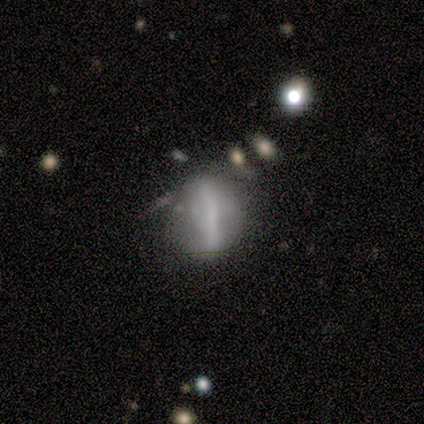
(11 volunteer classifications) A featured or disk galaxy (64%) viewed edge-on (57%) with no central bulge (75%).

Vote fractions:
- Smooth or featured? featured or disk: 64% / smooth: 18% / star or artifact: 18%
- Edge-on disk? yes: 57% / no: 43%
- Edge-on bulge? none: 75% / rounded: 25% / boxy: 0%
- Merging? minor disturbance: 33% / none: 22% / major disturbance: 22% / merger: 22%